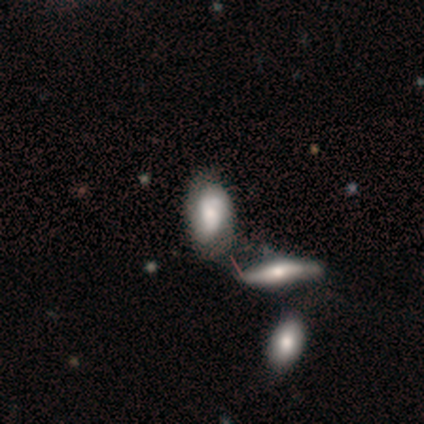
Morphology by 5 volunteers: A smooth galaxy with no disk features (40%, tied with featured or disk) that is in between round and cigar-shaped (100%). Merging: none (75%).